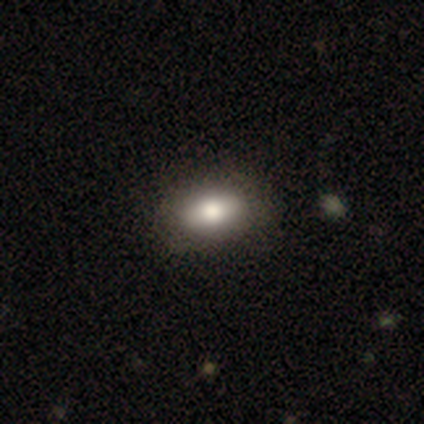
Smooth or featured?
  - smooth: 80% *
  - featured or disk: 12%
  - star or artifact: 8%
How rounded?
  - in between: 94% *
  - round: 6%
  - cigar-shaped: 0%
Merging?
  - none: 54% *
  - major disturbance: 5%
  - merger: 3%
  - minor disturbance: 0%